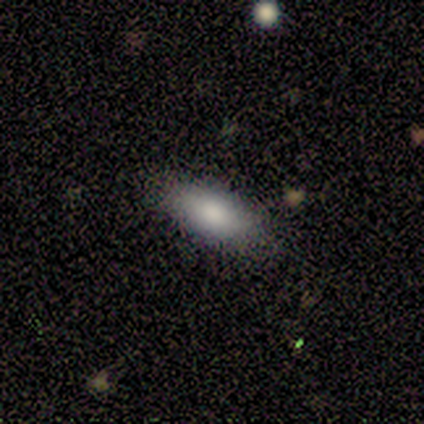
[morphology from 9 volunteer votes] Q: Smooth or featured?
A: smooth (56%); runner-up: featured or disk (22%)
Q: How rounded?
A: in between (60%); runner-up: cigar-shaped (40%)
Q: Merging?
A: none (71%); runner-up: minor disturbance (29%)